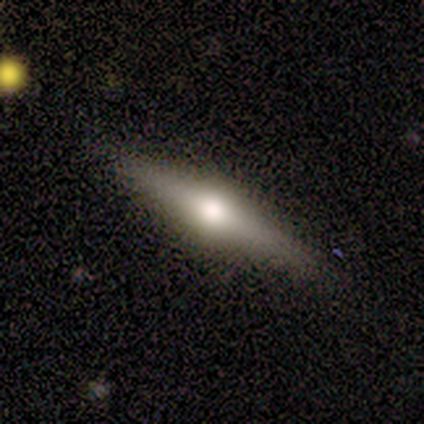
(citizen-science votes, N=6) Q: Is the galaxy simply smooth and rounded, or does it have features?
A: featured or disk — 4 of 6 (67%).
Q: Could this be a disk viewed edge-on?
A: yes — 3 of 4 (75%).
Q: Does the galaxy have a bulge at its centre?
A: rounded — 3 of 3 (100%).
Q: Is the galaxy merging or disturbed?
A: none — 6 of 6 (100%).